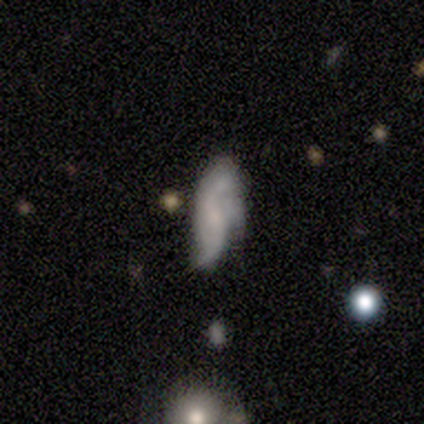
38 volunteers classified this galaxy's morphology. Smooth or featured?
  - smooth: 63% *
  - featured or disk: 32%
  - star or artifact: 5%
How rounded?
  - in between: 54% *
  - cigar-shaped: 33%
  - round: 12%
Merging?
  - none: 36% * (tied)
  - minor disturbance: 36% * (tied)
  - merger: 19%
  - major disturbance: 8%